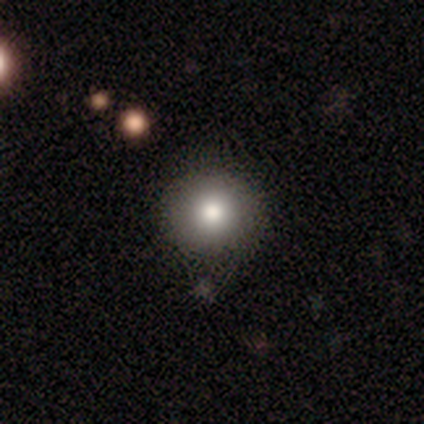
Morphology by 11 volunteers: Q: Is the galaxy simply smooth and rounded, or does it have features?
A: smooth — 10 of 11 (91%).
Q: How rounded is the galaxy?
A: round — 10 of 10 (100%).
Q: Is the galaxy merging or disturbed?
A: none — 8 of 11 (73%).